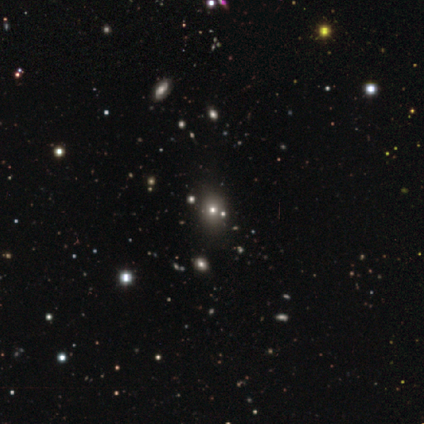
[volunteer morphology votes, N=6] A smooth galaxy with no disk features (50%) that is in between round and cigar-shaped (67%). Merging: none (60%).